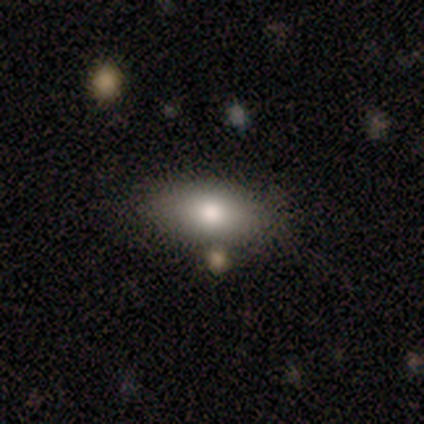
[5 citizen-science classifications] Volunteers were most divided on "how rounded" (3-way tie): round: 33%, in between: 33%, cigar-shaped: 33%. More confident: smooth or featured — smooth (60%); merging — minor disturbance (60%).